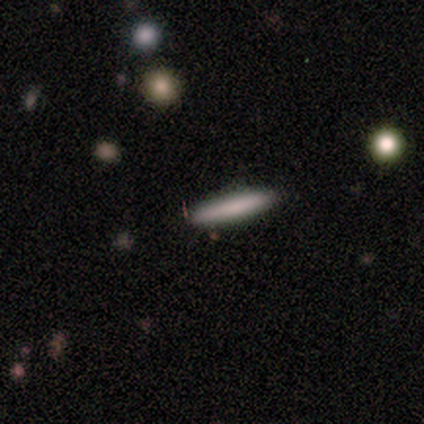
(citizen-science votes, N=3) Smooth or featured: smooth — 67% (featured or disk — 33%)
How rounded: cigar-shaped — 100%
Merging: none — 100%